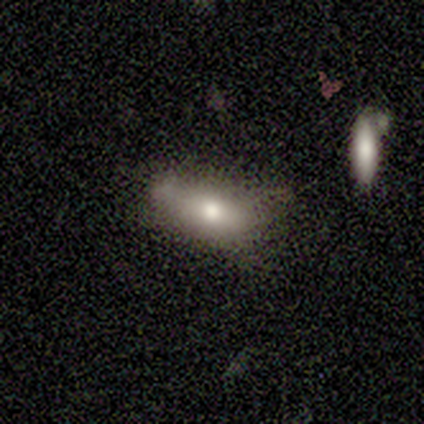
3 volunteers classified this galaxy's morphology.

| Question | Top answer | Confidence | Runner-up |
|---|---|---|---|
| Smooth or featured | smooth | 67% | featured or disk (33%) |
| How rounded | cigar-shaped | 100% | — |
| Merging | minor disturbance | 67% | none (33%) |